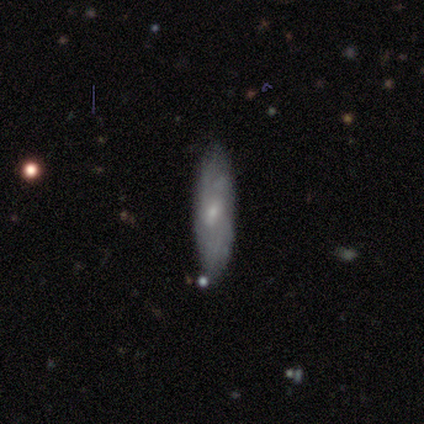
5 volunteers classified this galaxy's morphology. Overall: smooth (60%; featured or disk 40%). How rounded: in between (100%). Merging: none (100%).